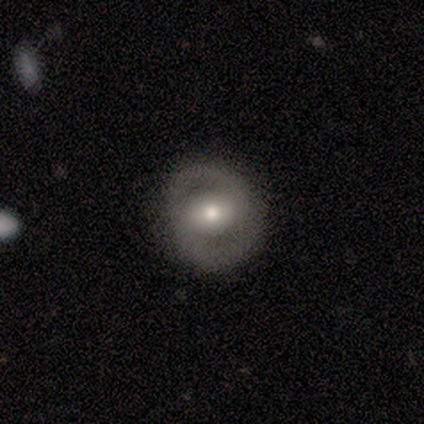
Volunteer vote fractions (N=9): Volunteers were most divided on "bar" (2-way tie): weak: 40%, no: 40%, strong: 20%. More confident: edge-on disk — no (83%); merging — none (75%); smooth or featured — featured or disk (67%); spiral arms — no (60%); bulge size — moderate (60%).